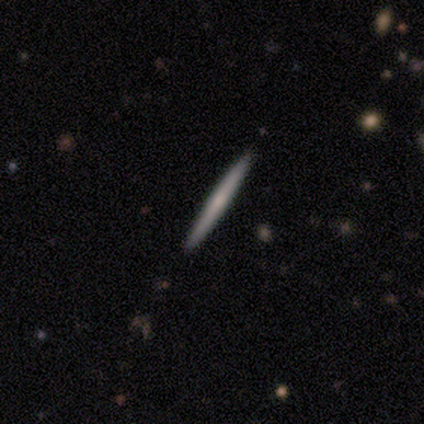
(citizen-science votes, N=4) This appears to be a smooth galaxy with no disk features (50%, tied with featured or disk) that is cigar-shaped (100%). Merging: none (100%).